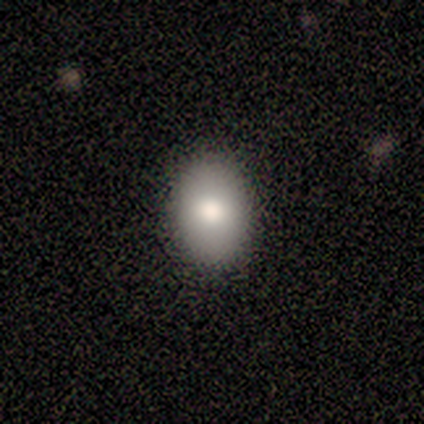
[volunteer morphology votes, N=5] A smooth galaxy with no disk features (100%) that is in between round and cigar-shaped (100%). Merging: none (100%).